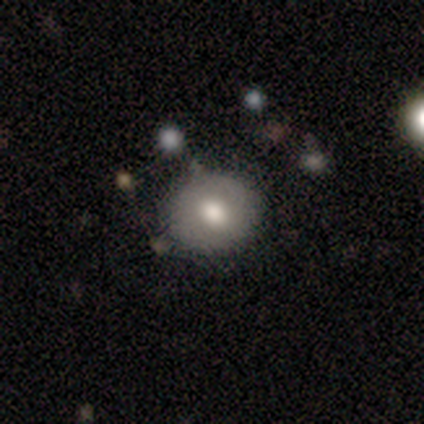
Smooth or featured?
  - smooth: 75% *
  - featured or disk: 25%
  - star or artifact: 0%
How rounded?
  - round: 67% *
  - in between: 33%
  - cigar-shaped: 0%
Merging?
  - none: 100% *
  - minor disturbance: 0%
  - major disturbance: 0%
  - merger: 0%